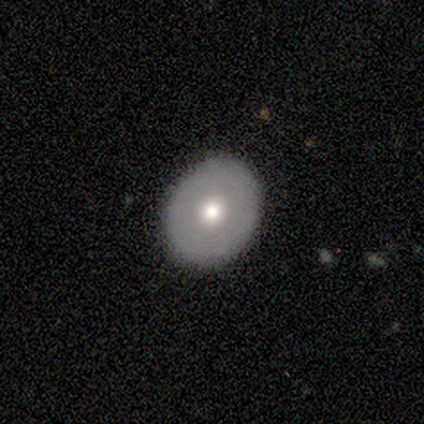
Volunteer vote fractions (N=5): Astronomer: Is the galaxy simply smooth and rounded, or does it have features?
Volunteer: smooth — 40%, tied with featured or disk at 40%.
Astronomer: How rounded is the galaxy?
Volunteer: round — 50%, tied with in between at 50%.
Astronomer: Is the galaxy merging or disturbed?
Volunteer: none — 100%.